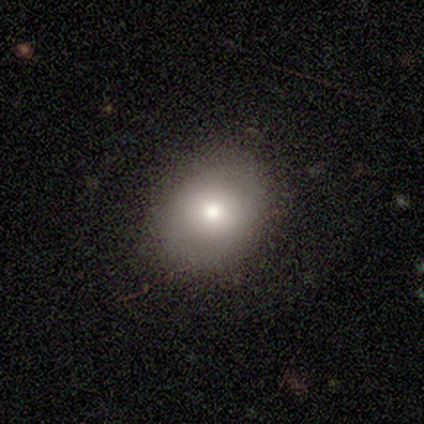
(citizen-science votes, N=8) smooth-or-featured: smooth: 62% | featured or disk: 38% | star or artifact: 0%
  how-rounded: round: 80% | in between: 20% | cigar-shaped: 0%
  merging: none: 100% | minor disturbance: 0% | major disturbance: 0% | merger: 0%